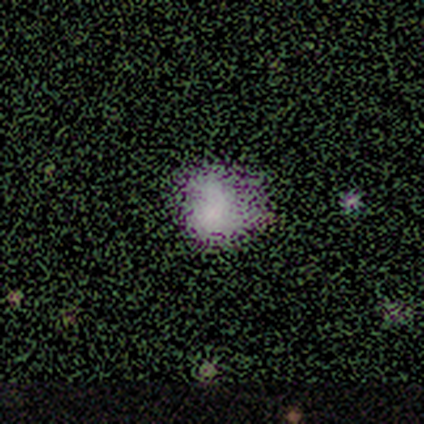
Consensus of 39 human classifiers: A smooth galaxy with no disk features (46%) that is round (61%). Merging: none (50%).